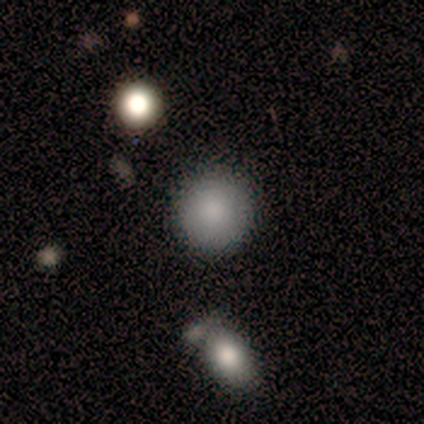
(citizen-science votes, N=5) This is clearly a smooth galaxy (80%). How rounded: clearly round (100%). Merging: likely none (75%).